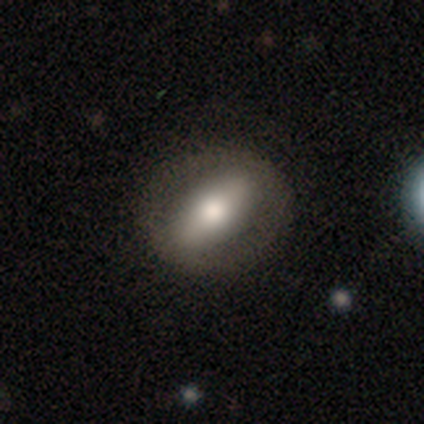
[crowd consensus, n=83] Q: Smooth or featured?
A: smooth (47%); tied with: featured or disk (47%)
Q: How rounded?
A: in between (62%); runner-up: round (26%)
Q: Merging?
A: none (88%); runner-up: minor disturbance (8%)